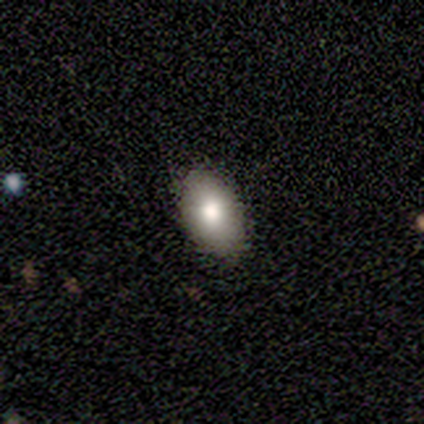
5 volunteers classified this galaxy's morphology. Overall: smooth (60%; featured or disk 40%). How rounded: in between (100%). Merging: none (80%).